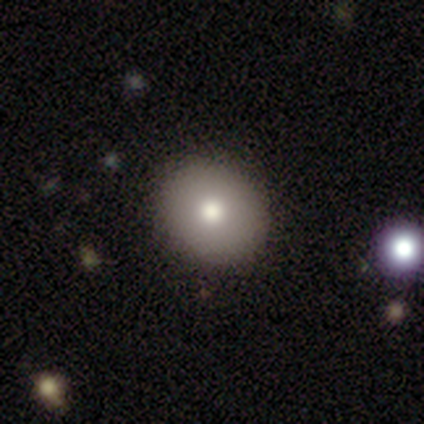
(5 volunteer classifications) A smooth galaxy with no disk features (100%) that is round (60%).

Vote fractions:
- Smooth or featured? smooth: 100% / featured or disk: 0% / star or artifact: 0%
- How rounded? round: 60% / in between: 40% / cigar-shaped: 0%
- Merging? none: 60% / minor disturbance: 20% / major disturbance: 20% / merger: 0%